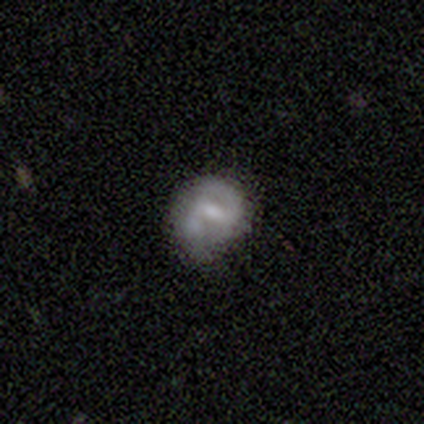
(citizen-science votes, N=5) This is clearly a featured or disk galaxy (80%). It is clearly not viewed edge-on (100%). Bar: possibly strong (50%, tied with weak). Spiral arm pattern: clearly yes (100%). Spiral arm count: clearly 2 (100%). Spiral winding: possibly medium (50%, tied with loose). Central bulge: likely small (75%). Merging: likely none (60%).